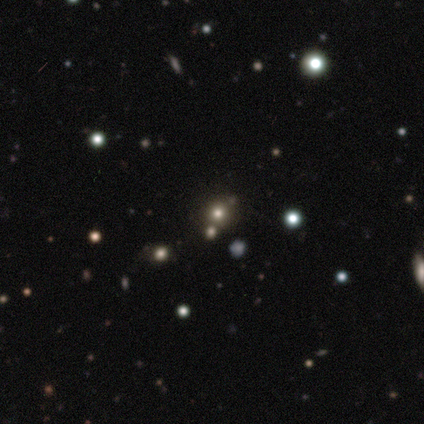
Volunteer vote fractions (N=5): A smooth galaxy with no disk features (80%) that is round (100%).

Vote fractions:
- Smooth or featured? smooth: 80% / star or artifact: 20% / featured or disk: 0%
- How rounded? round: 100% / in between: 0% / cigar-shaped: 0%
- Merging? none: 75% / minor disturbance: 25% / major disturbance: 0% / merger: 0%